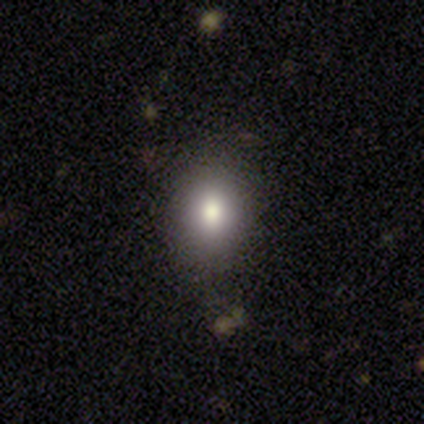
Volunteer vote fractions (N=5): Overall: smooth (80%). How rounded: round (100%). Merging: none (100%).